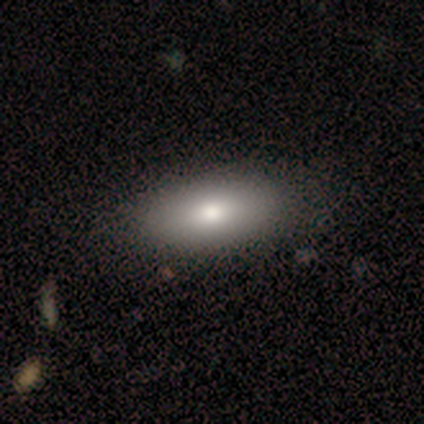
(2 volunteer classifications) Volunteers were most divided on "how rounded" (2-way tie): in between: 50%, cigar-shaped: 50%, round: 0%. More confident: smooth or featured — smooth (100%); merging — none (100%).